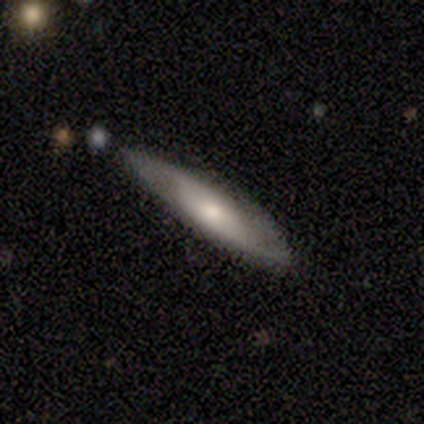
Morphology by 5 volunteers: This appears to be a smooth galaxy with no disk features (80%) that is in between round and cigar-shaped (50%, tied with cigar-shaped). Merging: none (60%).